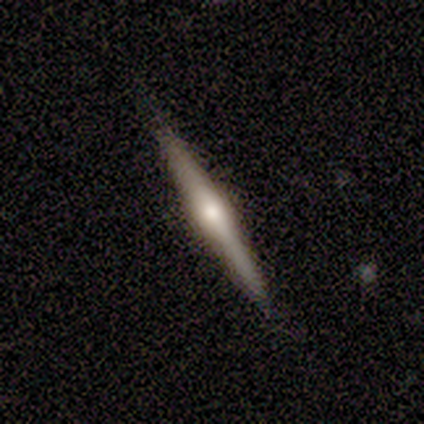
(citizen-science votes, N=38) Smooth or featured?
  - featured or disk: 63% *
  - smooth: 24%
  - star or artifact: 13%
Edge-on disk?
  - yes: 100% *
  - no: 0%
Edge-on bulge?
  - rounded: 88% *
  - none: 12%
  - boxy: 0%
Merging?
  - none: 94% *
  - minor disturbance: 6%
  - major disturbance: 0%
  - merger: 0%